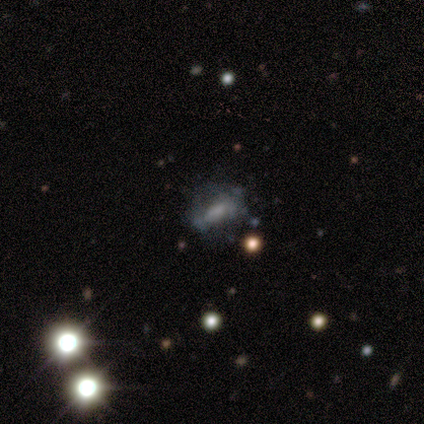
smooth-or-featured: featured or disk: 80% | smooth: 20% | star or artifact: 0%
  disk-edge-on: no: 100% | yes: 0%
    bar: weak: 50% | strong: 25% | no: 25%
    has-spiral-arms: no: 100% | yes: 0%
    bulge-size: moderate: 75% | small: 25% | dominant: 0% | large: 0% | none: 0%
  merging: none: 60% | minor disturbance: 20% | major disturbance: 20% | merger: 0%